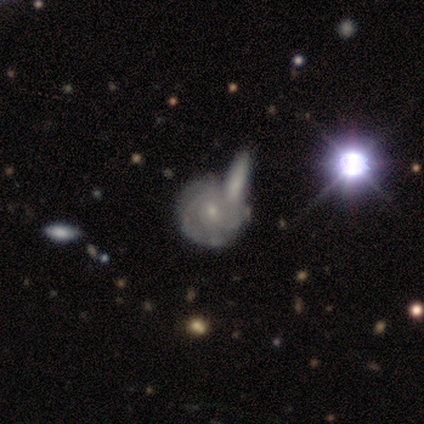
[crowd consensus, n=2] smooth_or_featured: featured or disk (p=1.00)
disk_edge_on: no (p=1.00)
bar: weak (p=0.50) [tied with: no p=0.50]
has_spiral_arms: yes (p=1.00)
spiral_winding: tight (p=0.50) [tied with: loose p=0.50]
spiral_arm_count: 1 (p=0.50) [tied with: can't tell p=0.50]
bulge_size: small (p=1.00)
merging: merger (p=1.00)